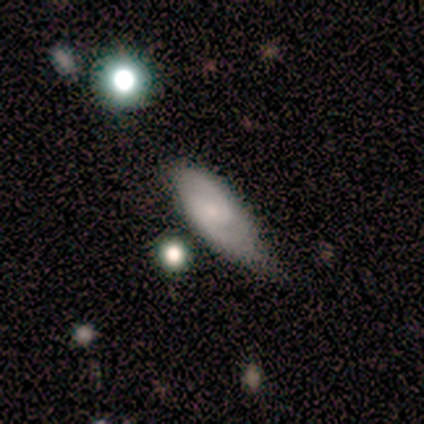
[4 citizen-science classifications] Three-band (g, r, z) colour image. It shows a featured or disk galaxy (50%) with no bar (100%), 2 (100%) medium (100%) spiral arms (100%) and a small central bulge (50%, tied with none). Merging: none (67%).